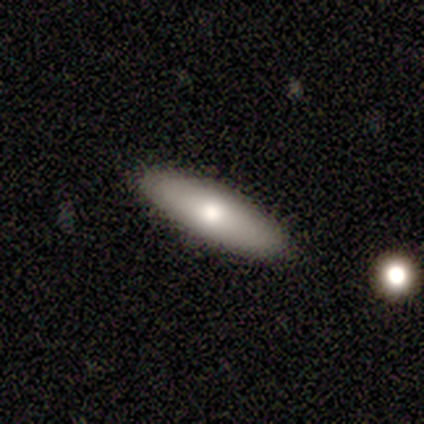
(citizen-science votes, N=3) smooth_or_featured: smooth (p=0.33) [tied with: featured or disk p=0.33, star or artifact p=0.33]
how_rounded: in between (p=1.00)
merging: none (p=1.00)